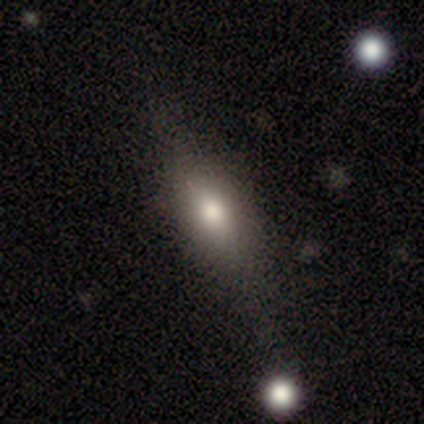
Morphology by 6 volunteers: Overall: featured or disk (50%; smooth 33%). Edge-on disk: yes (67%; no 33%). Edge-on bulge: rounded (100%). Merging: none (80%).